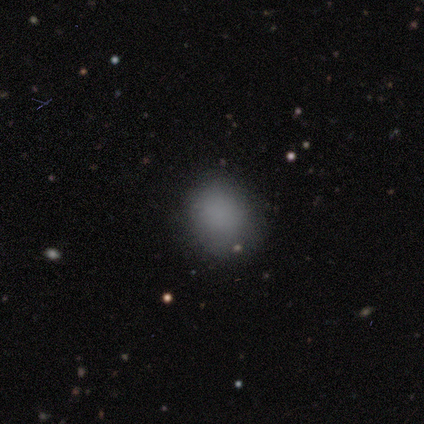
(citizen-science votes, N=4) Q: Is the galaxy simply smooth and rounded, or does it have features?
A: smooth — 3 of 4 (75%).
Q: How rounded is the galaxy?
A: round — 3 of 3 (100%).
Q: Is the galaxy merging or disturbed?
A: none — 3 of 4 (75%).